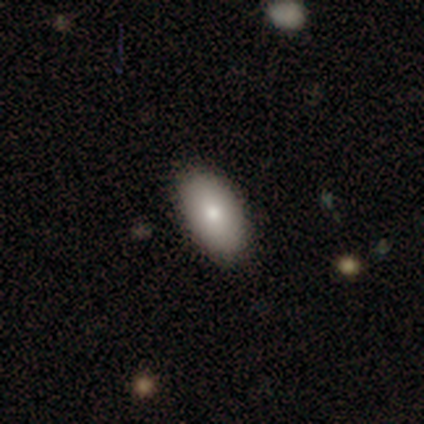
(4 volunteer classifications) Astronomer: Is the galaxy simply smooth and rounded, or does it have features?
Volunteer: smooth — 50%, tied with featured or disk at 50%.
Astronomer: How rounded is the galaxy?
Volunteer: in between — 100%.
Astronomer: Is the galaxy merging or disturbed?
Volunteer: none — 75%.